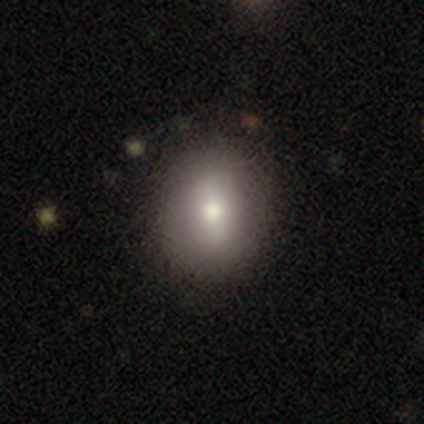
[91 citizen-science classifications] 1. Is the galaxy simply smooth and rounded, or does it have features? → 66% smooth, 24% featured or disk, 10% star or artifact.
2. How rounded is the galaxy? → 52% in between, 45% round, 3% cigar-shaped.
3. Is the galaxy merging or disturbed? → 88% none, 9% minor disturbance, 4% major disturbance, 0% merger.